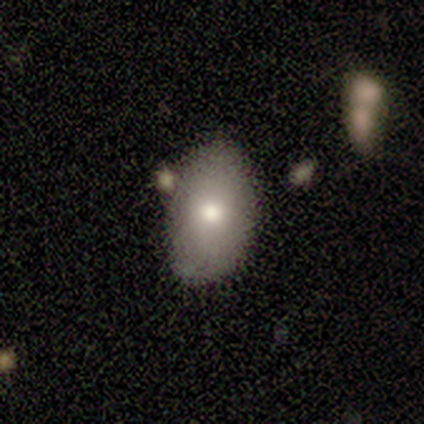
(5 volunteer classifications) A smooth galaxy with no disk features (80%) that is in between round and cigar-shaped (75%).

Vote fractions:
- Smooth or featured? smooth: 80% / featured or disk: 20% / star or artifact: 0%
- How rounded? in between: 75% / round: 25% / cigar-shaped: 0%
- Merging? none: 60% / minor disturbance: 40% / major disturbance: 0% / merger: 0%